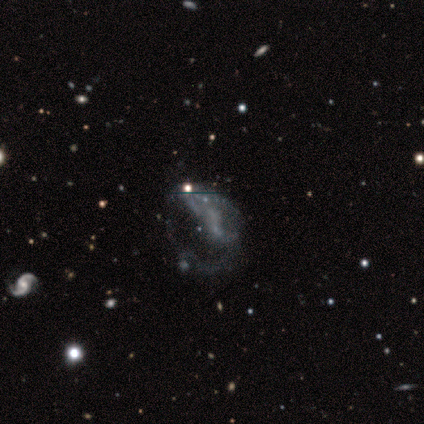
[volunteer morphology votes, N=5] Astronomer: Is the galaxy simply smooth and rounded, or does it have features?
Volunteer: featured or disk — 60%.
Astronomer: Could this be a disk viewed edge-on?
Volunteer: no — 100%.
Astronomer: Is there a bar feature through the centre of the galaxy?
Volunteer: no — 67%.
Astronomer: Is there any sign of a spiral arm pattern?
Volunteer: no — 67%.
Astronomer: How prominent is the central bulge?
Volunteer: none — 100%.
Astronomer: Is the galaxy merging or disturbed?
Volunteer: none — 50%.